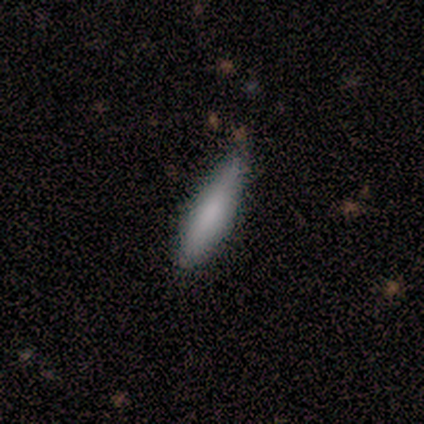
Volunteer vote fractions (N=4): smooth-or-featured: smooth: 100% | featured or disk: 0% | star or artifact: 0%
  how-rounded: cigar-shaped: 100% | round: 0% | in between: 0%
  merging: none: 75% | minor disturbance: 25% | major disturbance: 0% | merger: 0%